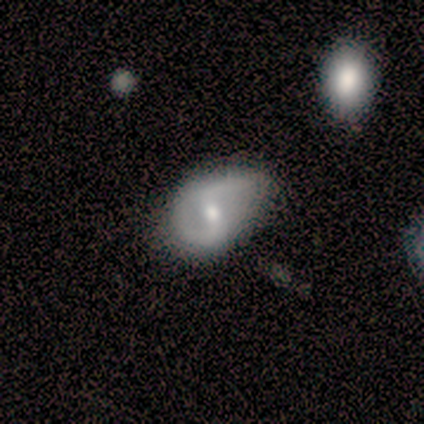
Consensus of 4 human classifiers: Morphology: type=featured or disk (75%); edge-on=no (100%); bar=strong (33%, tied with weak and no); spiral arms=yes (100%); winding=loose (67%); arm count=2 (100%); bulge=small (67%); merging=minor disturbance (75%).